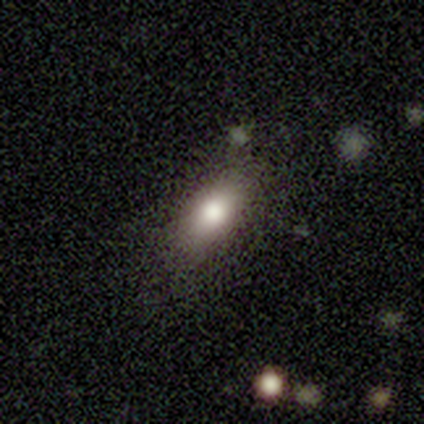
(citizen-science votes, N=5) A smooth galaxy with no disk features (80%) that is in between round and cigar-shaped (100%).

Vote fractions:
- Smooth or featured? smooth: 80% / featured or disk: 20% / star or artifact: 0%
- How rounded? in between: 100% / round: 0% / cigar-shaped: 0%
- Merging? none: 80% / minor disturbance: 20% / major disturbance: 0% / merger: 0%